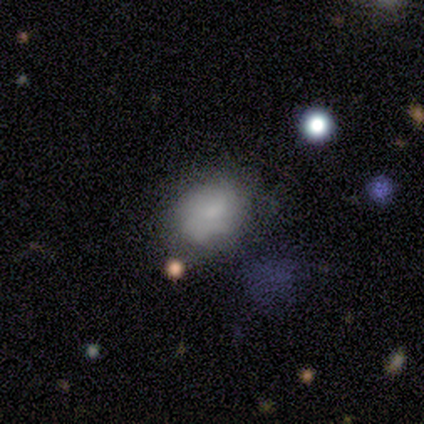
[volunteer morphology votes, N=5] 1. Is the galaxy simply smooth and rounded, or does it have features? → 100% smooth, 0% featured or disk, 0% star or artifact.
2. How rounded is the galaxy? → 80% in between, 20% round, 0% cigar-shaped.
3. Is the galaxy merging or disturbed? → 60% none, 40% minor disturbance, 0% major disturbance, 0% merger.